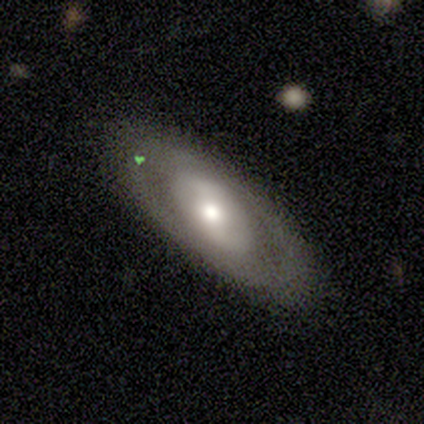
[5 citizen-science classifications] Smooth or featured? 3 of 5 (60%) said featured or disk. Edge-on disk? 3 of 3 (100%) said no. Bar? 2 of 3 (67%) said no. Spiral arms? 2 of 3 (67%) said yes. Spiral winding? 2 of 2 (100%) said loose. Spiral arm count? 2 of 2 (100%) said 2. Bulge size? 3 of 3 (100%) said moderate. Merging? 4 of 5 (80%) said none.